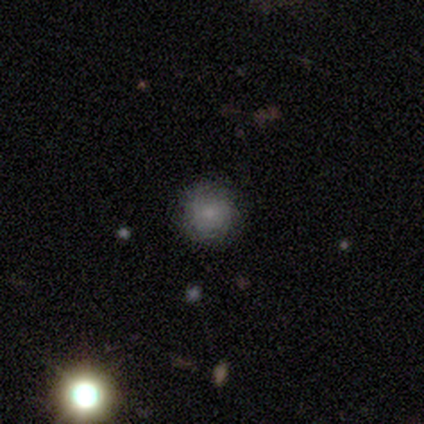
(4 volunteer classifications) Smooth or featured? 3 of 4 (75%) said smooth. How rounded? 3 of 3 (100%) said round. Merging? 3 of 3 (100%) said none.